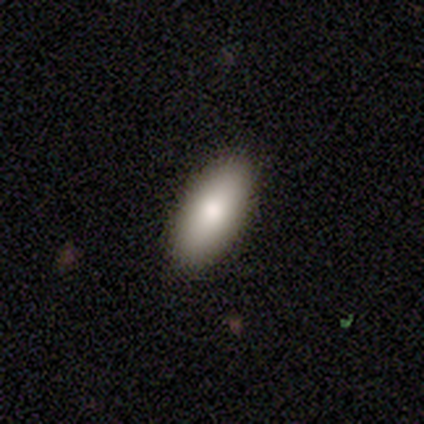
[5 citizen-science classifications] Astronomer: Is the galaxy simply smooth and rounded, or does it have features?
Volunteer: smooth — 100%.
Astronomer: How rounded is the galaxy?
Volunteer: in between — 100%.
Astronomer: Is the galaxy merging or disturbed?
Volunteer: none — 100%.